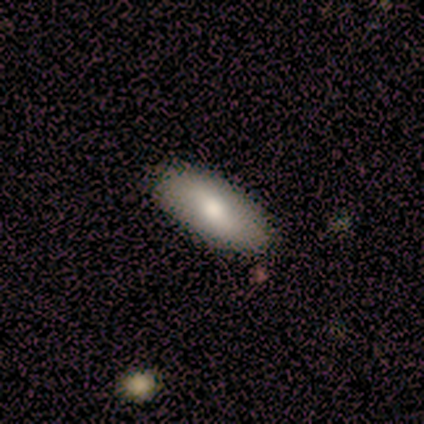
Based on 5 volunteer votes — smooth-or-featured: smooth: 80% | featured or disk: 20% | star or artifact: 0%
  how-rounded: in between: 100% | round: 0% | cigar-shaped: 0%
  merging: none: 100% | minor disturbance: 0% | major disturbance: 0% | merger: 0%